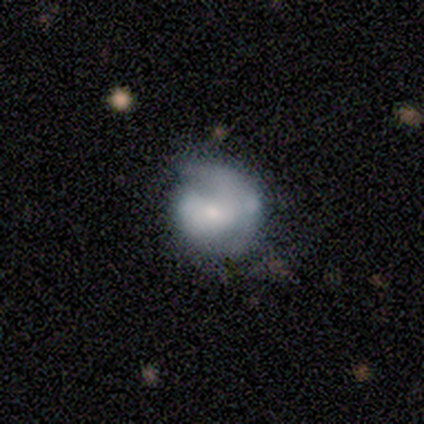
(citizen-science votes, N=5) This appears to be a smooth galaxy with no disk features (80%) that is round (75%). Merging: none (60%).